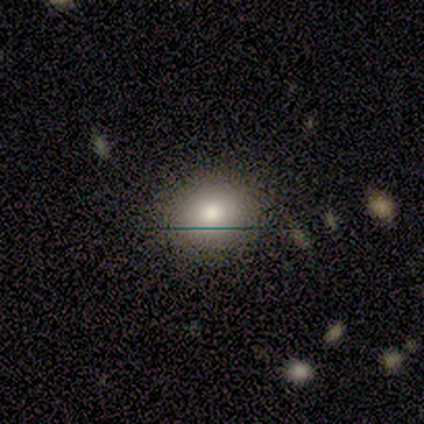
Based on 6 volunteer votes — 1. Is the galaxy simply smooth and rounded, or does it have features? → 83% smooth, 17% featured or disk, 0% star or artifact.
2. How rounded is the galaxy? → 80% round, 20% in between, 0% cigar-shaped.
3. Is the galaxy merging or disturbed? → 67% none, 33% minor disturbance, 0% major disturbance, 0% merger.